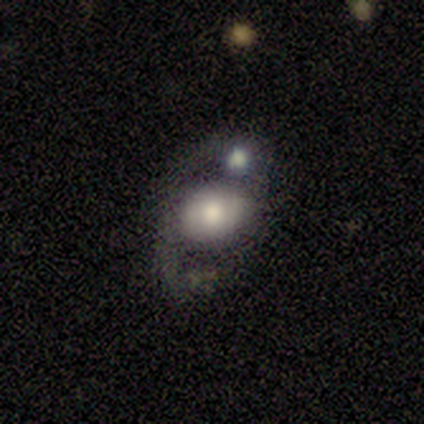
smooth_or_featured: smooth (p=0.60) [alt: featured or disk p=0.20]
how_rounded: in between (p=0.67) [alt: round p=0.33]
merging: merger (p=0.50) [alt: none p=0.25]